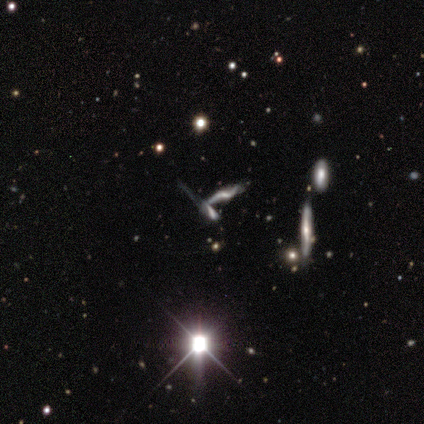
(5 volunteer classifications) A star or artifact, not a galaxy (60%).

Vote fractions:
- Smooth or featured? star or artifact: 60% / smooth: 20% / featured or disk: 20%